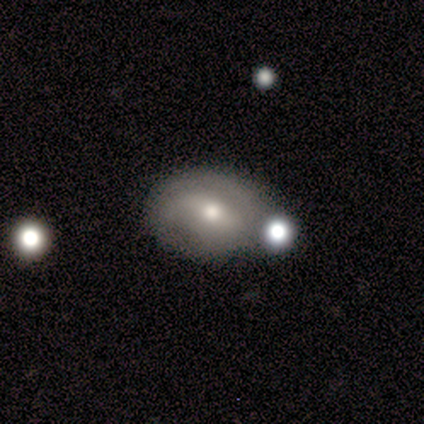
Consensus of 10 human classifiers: smooth_or_featured: smooth (p=0.60) [alt: featured or disk p=0.20]
how_rounded: in between (p=0.67) [alt: round p=0.33]
merging: none (p=0.50) [alt: minor disturbance p=0.25]